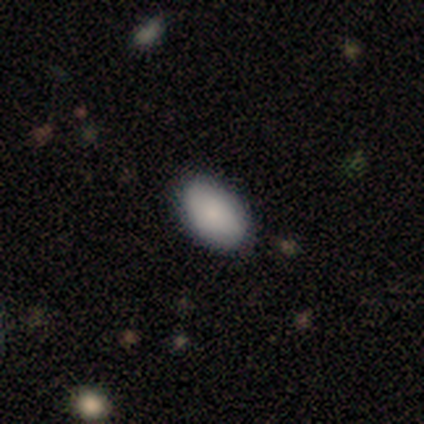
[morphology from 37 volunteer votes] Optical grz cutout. It shows a smooth galaxy with no disk features (92%) that is in between round and cigar-shaped (97%). Merging: none (92%).